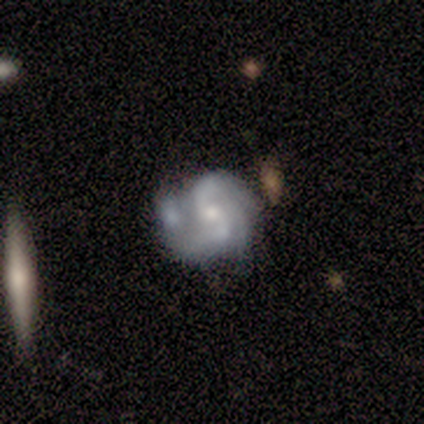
Smooth or featured? featured or disk (100%)
Edge-on disk? no (100%)
Bar? no (83%)
Spiral arms? yes (100%)
Spiral winding? medium (50%)
Spiral arm count? 2 (50%)
Bulge size? moderate (50%)
Merging? merger (50%)